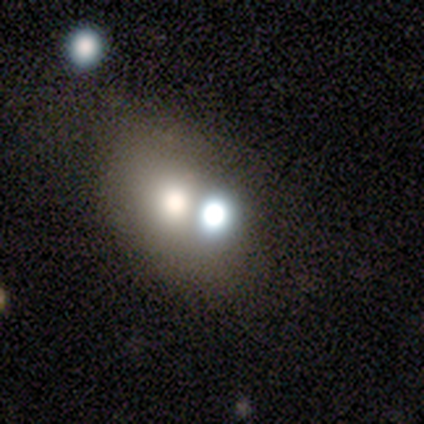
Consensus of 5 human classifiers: Q: Smooth or featured?
A: smooth (40%); tied with: star or artifact (40%)
Q: How rounded?
A: round (50%); tied with: in between (50%)
Q: Merging?
A: none (67%); runner-up: minor disturbance (33%)